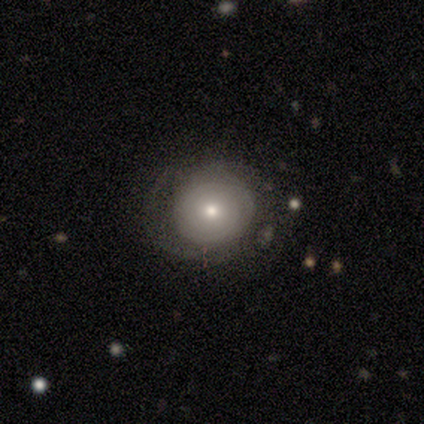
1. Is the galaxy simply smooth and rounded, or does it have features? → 40% smooth (tied), 40% featured or disk (tied), 20% star or artifact.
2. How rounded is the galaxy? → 100% round, 0% in between, 0% cigar-shaped.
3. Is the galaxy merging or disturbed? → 50% none, 25% minor disturbance, 25% major disturbance, 0% merger.